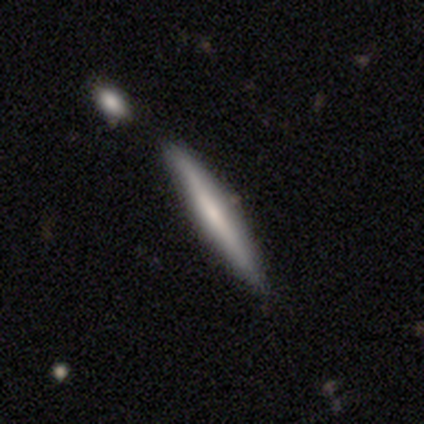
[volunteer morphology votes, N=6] smooth 50% (tied), featured or disk 50% (tied), star or artifact 0%. Down the decision tree: how rounded — cigar-shaped (100%); merging — none (100%).